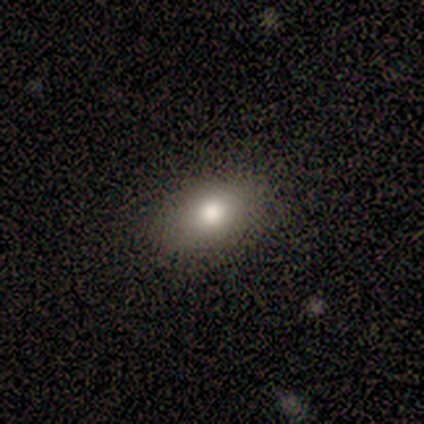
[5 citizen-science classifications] Smooth or featured? 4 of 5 (80%) said smooth. How rounded? 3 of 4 (75%) said in between. Merging? 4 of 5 (80%) said none.